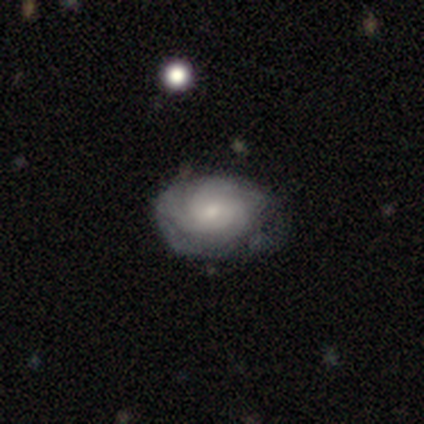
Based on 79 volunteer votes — Smooth or featured?
  - featured or disk: 72% *
  - smooth: 22%
  - star or artifact: 6%
Edge-on disk?
  - no: 95% *
  - yes: 5%
Bar?
  - no: 81% *
  - weak: 13%
  - strong: 6%
Spiral arms?
  - yes: 89% *
  - no: 11%
Spiral winding?
  - tight: 71% *
  - medium: 21%
  - loose: 8%
Spiral arm count?
  - can't tell: 73% *
  - 3: 15%
  - 2: 10%
  - 4: 2%
  - 1: 0%
  - more than 4: 0%
Bulge size?
  - small: 54% *
  - moderate: 33%
  - large: 6%
  - none: 6%
  - dominant: 2%
Merging?
  - none: 32% *
  - minor disturbance: 15%
  - merger: 3%
  - major disturbance: 1%